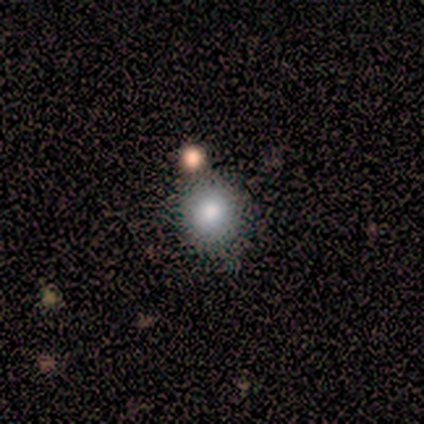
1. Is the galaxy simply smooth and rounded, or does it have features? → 100% smooth, 0% featured or disk, 0% star or artifact.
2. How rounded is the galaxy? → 100% round, 0% in between, 0% cigar-shaped.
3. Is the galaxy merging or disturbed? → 80% none, 20% minor disturbance, 0% major disturbance, 0% merger.